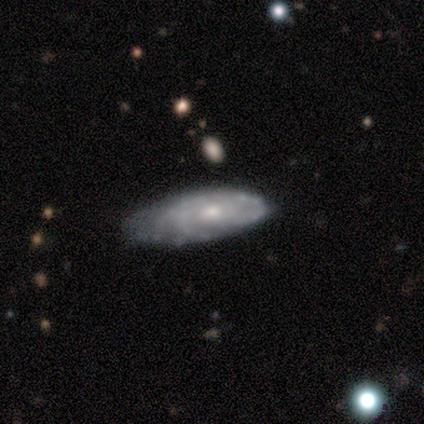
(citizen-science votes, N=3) Smooth or featured? 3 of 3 (100%) said featured or disk. Edge-on disk? 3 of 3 (100%) said no. Bar? 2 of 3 (67%) said no. Spiral arms? 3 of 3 (100%) said yes. Spiral winding? 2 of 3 (67%) said tight. Spiral arm count? 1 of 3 (33%, tied with 3 and can't tell) said 2. Bulge size? 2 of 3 (67%) said small. Merging? 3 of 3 (100%) said minor disturbance.